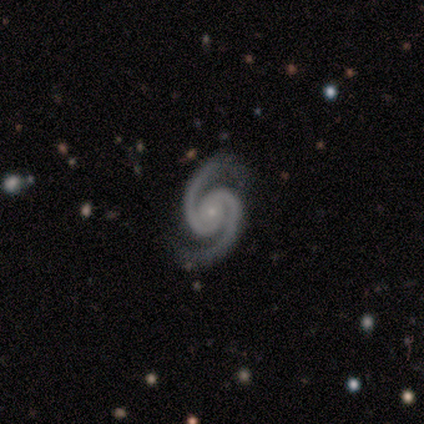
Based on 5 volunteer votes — Morphology: type=featured or disk (100%); edge-on=no (100%); bar=no (80%); spiral arms=yes (100%); winding=tight (60%); arm count=2 (100%); bulge=small (100%); merging=none (100%).